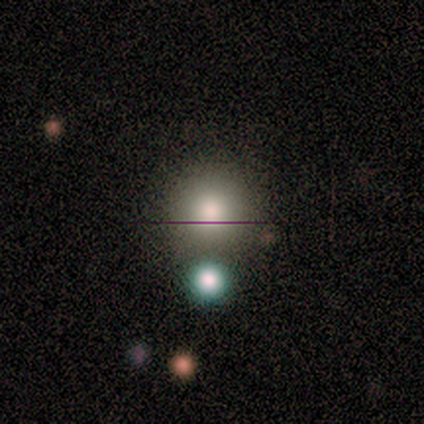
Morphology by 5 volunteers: This appears to be a smooth galaxy with no disk features (100%) that is round (80%). Merging: none (80%).